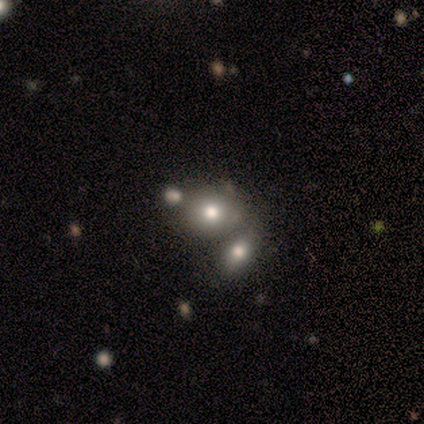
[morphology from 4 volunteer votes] Volunteers were most divided on "smooth or featured" (2-way tie): smooth: 50%, featured or disk: 50%, star or artifact: 0%. More confident: how rounded — round (100%); merging — merger (50%).